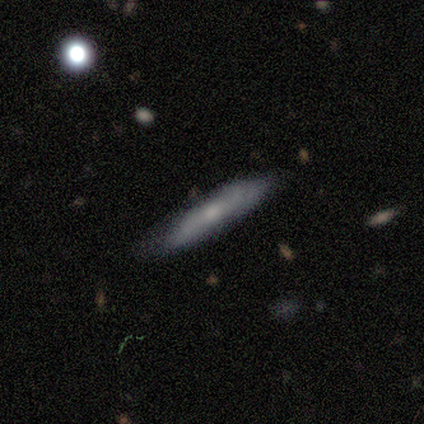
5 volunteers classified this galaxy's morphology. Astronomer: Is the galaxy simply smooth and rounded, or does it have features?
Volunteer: featured or disk — 60% (runner-up: smooth, 40%).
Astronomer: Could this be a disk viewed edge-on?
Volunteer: yes — 100%.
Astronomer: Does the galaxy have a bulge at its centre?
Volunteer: rounded — 67%.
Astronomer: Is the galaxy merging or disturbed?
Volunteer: none — 80%.